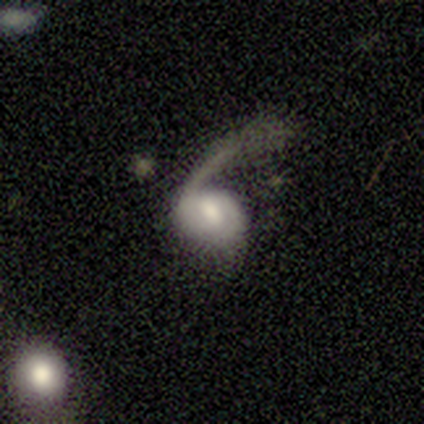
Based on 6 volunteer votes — This is clearly a featured or disk galaxy (83%). It is clearly not viewed edge-on (100%). Bar: likely weak (60%). Spiral arm pattern: clearly yes (100%). Spiral arm count: likely 2 (60%). Spiral winding: likely loose (60%). Central bulge: marginally large (40%, tied with moderate). Merging: clearly major disturbance (80%).